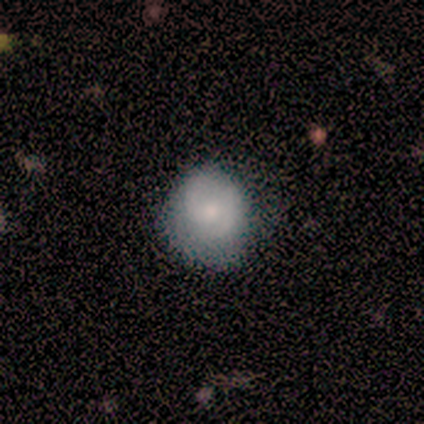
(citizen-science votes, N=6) smooth-or-featured: smooth: 50% (tied) | featured or disk: 50% (tied) | star or artifact: 0%
  how-rounded: in between: 67% | round: 33% | cigar-shaped: 0%
  merging: none: 67% | minor disturbance: 33% | major disturbance: 0% | merger: 0%